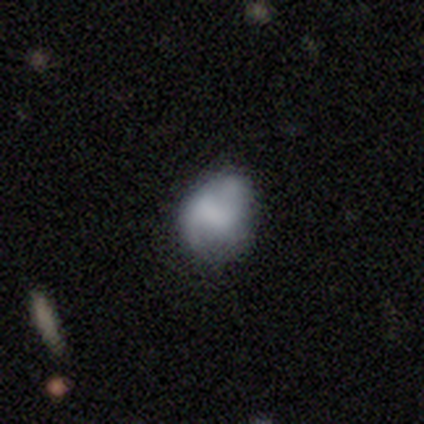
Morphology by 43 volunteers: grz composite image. It shows a smooth galaxy with no disk features (67%) that is in between round and cigar-shaped (52%). Merging: minor disturbance (45%).